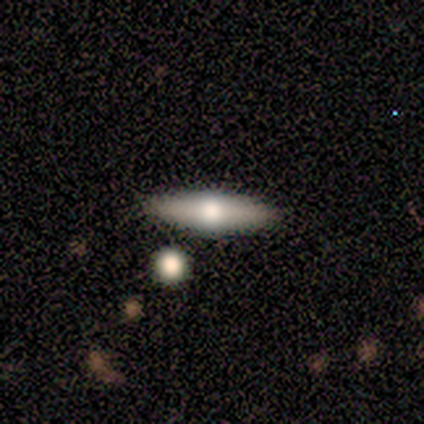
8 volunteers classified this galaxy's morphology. Smooth or featured? 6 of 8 (75%) said featured or disk. Edge-on disk? 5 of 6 (83%) said yes. Edge-on bulge? 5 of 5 (100%) said rounded. Merging? 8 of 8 (100%) said none.